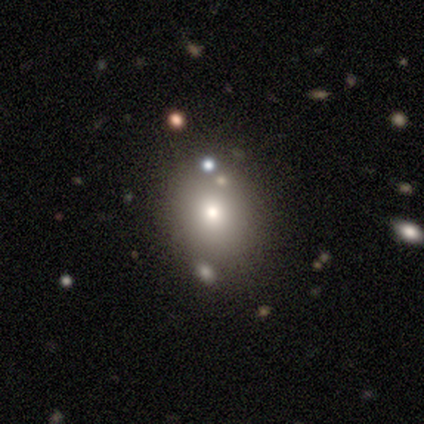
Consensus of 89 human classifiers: Overall: smooth (69%). How rounded: round (49%, tied with in between). Merging: none (81%).